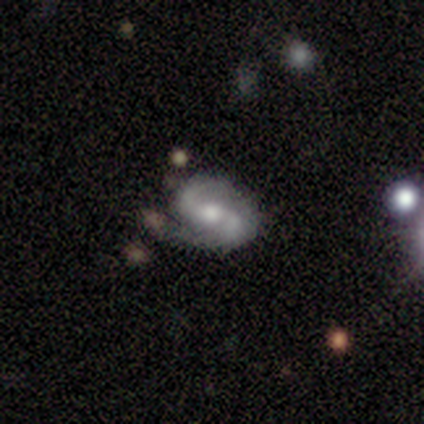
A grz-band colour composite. It shows a featured or disk galaxy (100%) with a weak bar (60%), 2 (75%) medium (50%, tied with loose) spiral arms (80%) and a small central bulge (60%). Merging: none (40%, tied with minor disturbance).